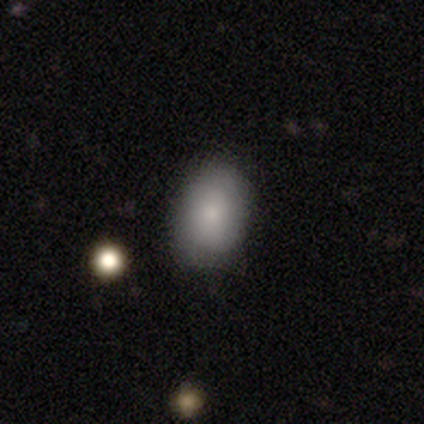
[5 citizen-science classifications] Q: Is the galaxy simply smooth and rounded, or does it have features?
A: smooth — 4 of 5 (80%).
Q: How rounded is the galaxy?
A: round — 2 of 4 (50%, tied with in between).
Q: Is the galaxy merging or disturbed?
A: none — 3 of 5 (60%).